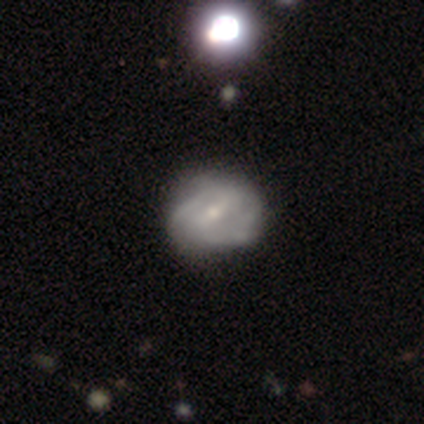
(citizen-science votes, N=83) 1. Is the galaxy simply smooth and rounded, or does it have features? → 65% featured or disk, 27% smooth, 8% star or artifact.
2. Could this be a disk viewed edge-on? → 96% no, 4% yes.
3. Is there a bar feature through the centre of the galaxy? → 50% weak, 37% strong, 13% no.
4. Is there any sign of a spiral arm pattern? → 77% yes, 23% no.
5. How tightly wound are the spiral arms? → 50% medium, 45% tight, 5% loose.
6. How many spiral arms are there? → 48% 2, 35% can't tell, 10% 3, 5% 4, 2% 1, 0% more than 4.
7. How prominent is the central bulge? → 56% small, 38% moderate, 4% none, 2% large, 0% dominant.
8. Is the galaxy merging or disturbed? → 61% none, 28% minor disturbance, 8% major disturbance, 4% merger.